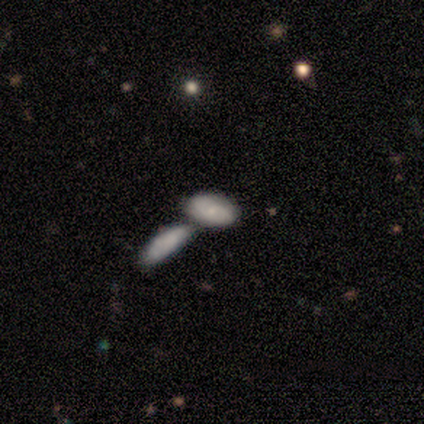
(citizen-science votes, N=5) Smooth or featured?
  - featured or disk: 60% *
  - smooth: 40%
  - star or artifact: 0%
Edge-on disk?
  - no: 100% *
  - yes: 0%
Bar?
  - no: 100% *
  - strong: 0%
  - weak: 0%
Spiral arms?
  - no: 67% *
  - yes: 33%
Bulge size?
  - small: 67% *
  - moderate: 33%
  - dominant: 0%
  - large: 0%
  - none: 0%
Merging?
  - merger: 60% *
  - none: 40%
  - minor disturbance: 0%
  - major disturbance: 0%